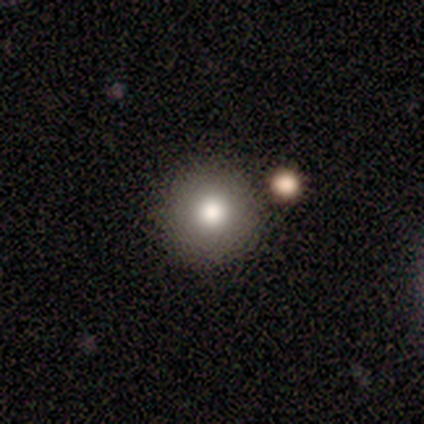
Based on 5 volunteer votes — Q: Smooth or featured?
A: smooth (100%)
Q: How rounded?
A: round (100%)
Q: Merging?
A: none (100%)